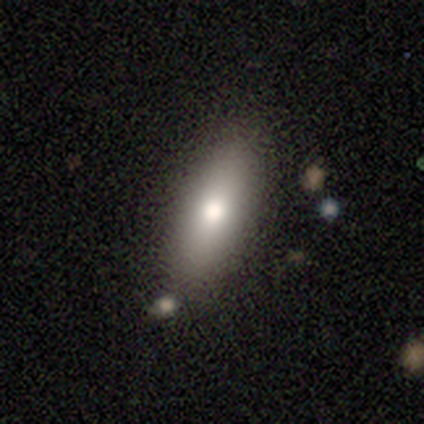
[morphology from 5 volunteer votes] This is clearly a smooth galaxy (80%). How rounded: likely cigar-shaped (75%). Merging: clearly none (80%).